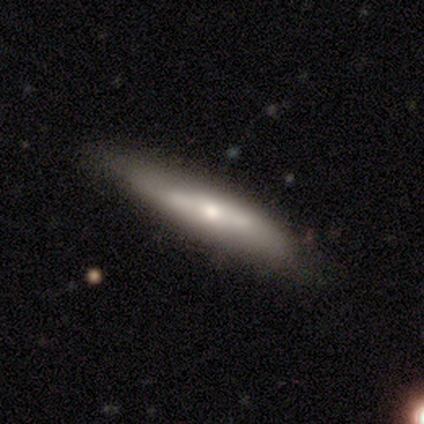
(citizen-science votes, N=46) A smooth galaxy with no disk features (57%) that is cigar-shaped (85%).

Vote fractions:
- Smooth or featured? smooth: 57% / featured or disk: 28% / star or artifact: 15%
- How rounded? cigar-shaped: 85% / in between: 15% / round: 0%
- Merging? none: 67% / minor disturbance: 21% / major disturbance: 10% / merger: 3%